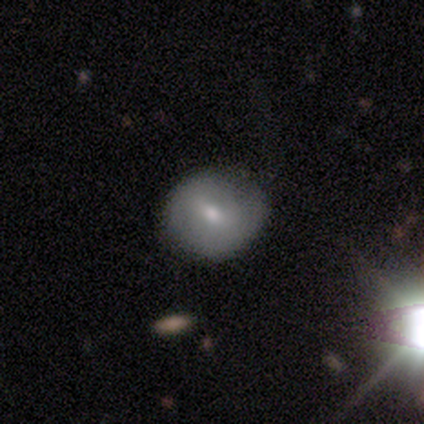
Overall: smooth (40%, tied with featured or disk). How rounded: round (100%). Merging: minor disturbance (50%, tied with major disturbance).